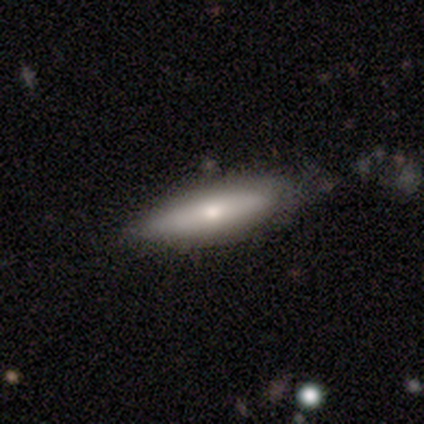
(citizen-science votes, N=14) Morphology: type=smooth (64%); roundness=cigar-shaped (56%); merging=none (62%).